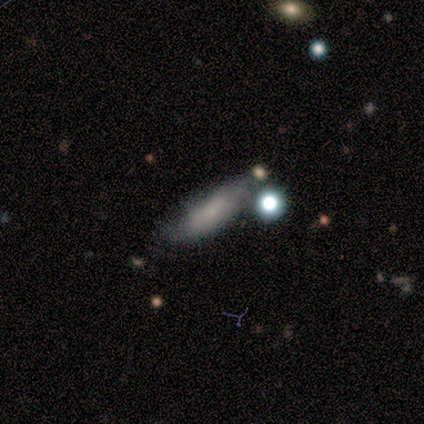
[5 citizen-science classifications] This is clearly a smooth galaxy (80%). How rounded: possibly in between (50%, tied with cigar-shaped). Merging: likely minor disturbance (60%).